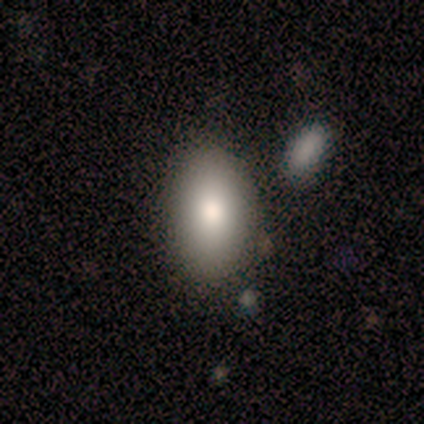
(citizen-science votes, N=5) A smooth galaxy with no disk features (100%) that is in between round and cigar-shaped (80%). Merging: none (100%).